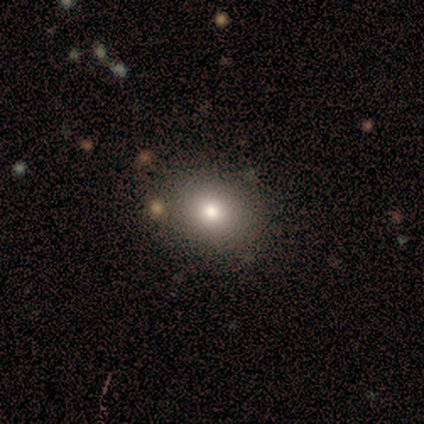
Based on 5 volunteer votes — smooth-or-featured: smooth: 80% | featured or disk: 20% | star or artifact: 0%
  how-rounded: in between: 75% | round: 25% | cigar-shaped: 0%
  merging: none: 100% | minor disturbance: 0% | major disturbance: 0% | merger: 0%